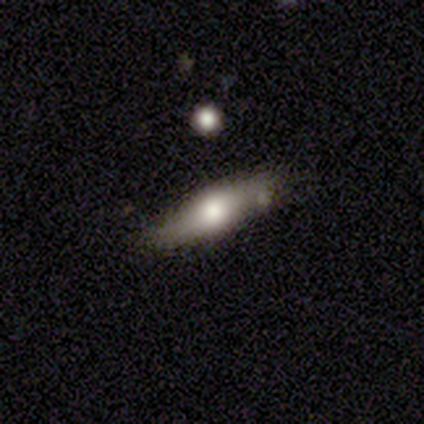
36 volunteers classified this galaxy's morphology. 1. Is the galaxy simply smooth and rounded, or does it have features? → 53% smooth, 33% featured or disk, 14% star or artifact.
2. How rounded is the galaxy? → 74% cigar-shaped, 26% in between, 0% round.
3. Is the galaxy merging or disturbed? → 87% none, 13% minor disturbance, 0% major disturbance, 0% merger.